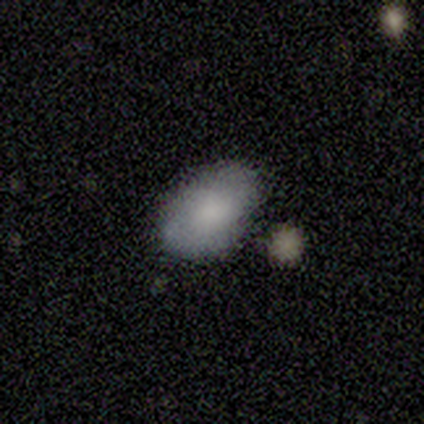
A smooth galaxy with no disk features (75%) that is in between round and cigar-shaped (100%). Merging: none (100%).